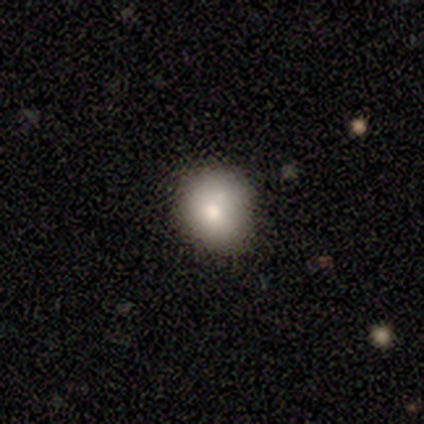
smooth-or-featured: smooth: 80% | featured or disk: 20% | star or artifact: 0%
  how-rounded: round: 100% | in between: 0% | cigar-shaped: 0%
  merging: none: 80% | merger: 20% | minor disturbance: 0% | major disturbance: 0%